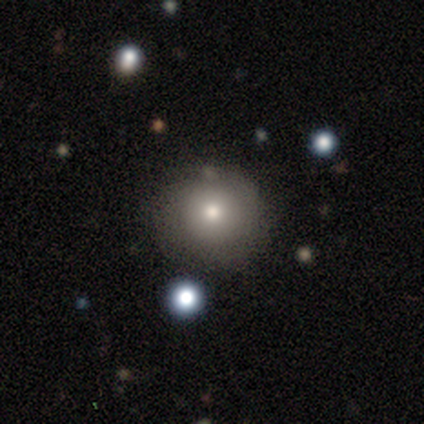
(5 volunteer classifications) smooth 80%, featured or disk 20%, star or artifact 0%. Down the decision tree: how rounded — round (100%); merging — none (40%, tied with minor disturbance).